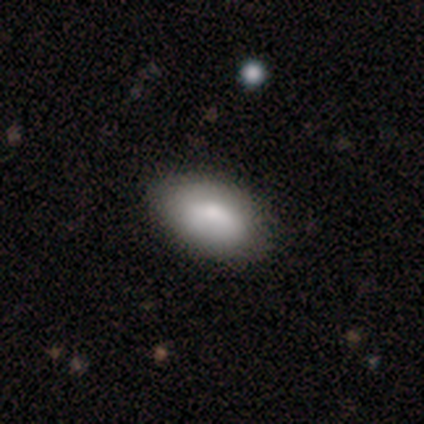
A smooth galaxy with no disk features (40%, tied with featured or disk) that is in between round and cigar-shaped (100%).

Vote fractions:
- Smooth or featured? smooth: 40% (tied) / featured or disk: 40% (tied) / star or artifact: 20%
- How rounded? in between: 100% / round: 0% / cigar-shaped: 0%
- Merging? none: 100% / minor disturbance: 0% / major disturbance: 0% / merger: 0%